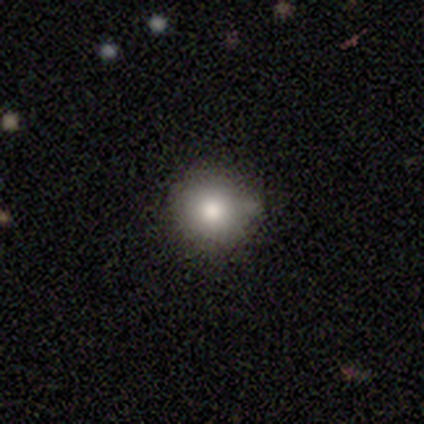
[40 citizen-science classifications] smooth-or-featured: smooth: 82% | featured or disk: 10% | star or artifact: 8%
  how-rounded: round: 94% | in between: 6% | cigar-shaped: 0%
  merging: none: 43% | minor disturbance: 22% | merger: 8% | major disturbance: 0%